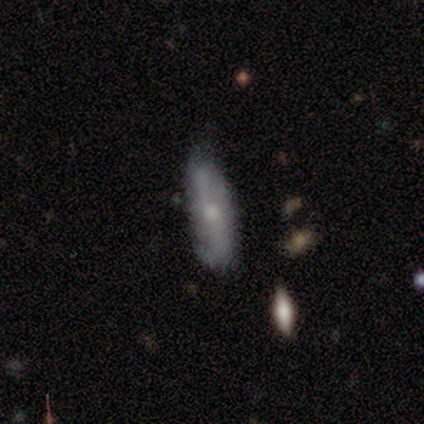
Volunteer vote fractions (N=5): A featured or disk galaxy (60%) with a weak bar (67%), 2 (100%) loose (67%) spiral arms (100%) and a small central bulge (67%).

Vote fractions:
- Smooth or featured? featured or disk: 60% / smooth: 40% / star or artifact: 0%
- Edge-on disk? no: 100% / yes: 0%
- Bar? weak: 67% / no: 33% / strong: 0%
- Spiral arms? yes: 100% / no: 0%
- Spiral winding? loose: 67% / tight: 33% / medium: 0%
- Spiral arm count? 2: 100% / 1: 0% / 3: 0% / 4: 0% / more than 4: 0% / can't tell: 0%
- Bulge size? small: 67% / moderate: 33% / dominant: 0% / large: 0% / none: 0%
- Merging? none: 80% / minor disturbance: 20% / major disturbance: 0% / merger: 0%